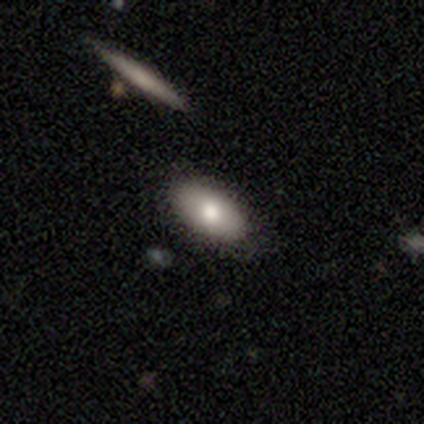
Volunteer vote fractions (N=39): Smooth or featured: smooth — 77% (featured or disk — 18%)
How rounded: in between — 80% (cigar-shaped — 20%)
Merging: none — 70% (minor disturbance — 19%)